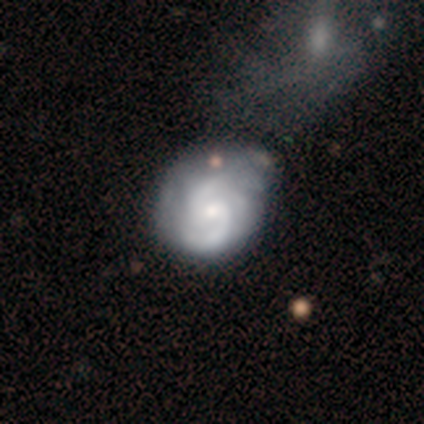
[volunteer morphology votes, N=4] featured or disk 100%, smooth 0%, star or artifact 0%. Down the decision tree: edge-on disk — no (100%); bar — weak (75%); spiral arms — yes (100%); spiral arm count — 2 (100%); spiral winding — tight (50%, tied with medium); bulge size — moderate (100%); merging — none (50%).